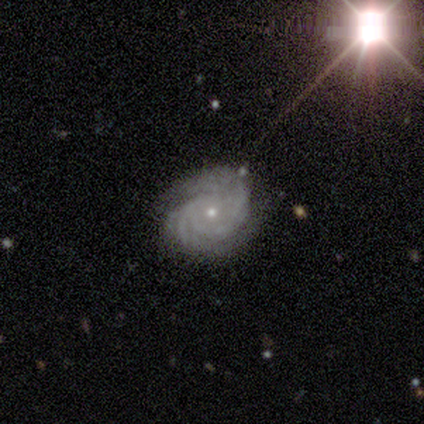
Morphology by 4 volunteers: smooth-or-featured: featured or disk: 75% | star or artifact: 25% | smooth: 0%
  disk-edge-on: no: 100% | yes: 0%
    bar: no: 67% | strong: 33% | weak: 0%
    has-spiral-arms: yes: 100% | no: 0%
      spiral-winding: tight: 67% | medium: 33% | loose: 0%
      spiral-arm-count: 3: 33% (tied) | more than 4: 33% (tied) | can't tell: 33% (tied) | 1: 0% | 2: 0% | 4: 0%
    bulge-size: small: 67% | moderate: 33% | dominant: 0% | large: 0% | none: 0%
  merging: none: 67% | minor disturbance: 33% | major disturbance: 0% | merger: 0%